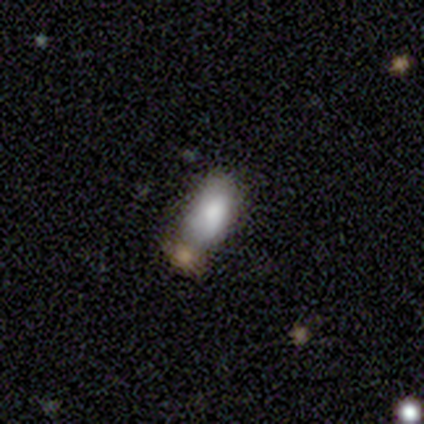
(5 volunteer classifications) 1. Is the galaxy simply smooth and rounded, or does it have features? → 100% smooth, 0% featured or disk, 0% star or artifact.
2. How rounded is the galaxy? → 80% in between, 20% cigar-shaped, 0% round.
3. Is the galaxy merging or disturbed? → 40% none (tied), 40% merger (tied), 20% minor disturbance, 0% major disturbance.